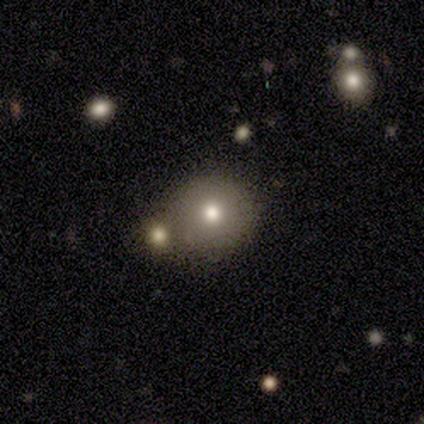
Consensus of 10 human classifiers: Q: Smooth or featured?
A: smooth (90%); runner-up: featured or disk (10%)
Q: How rounded?
A: round (89%); runner-up: in between (11%)
Q: Merging?
A: none (70%); runner-up: merger (20%)